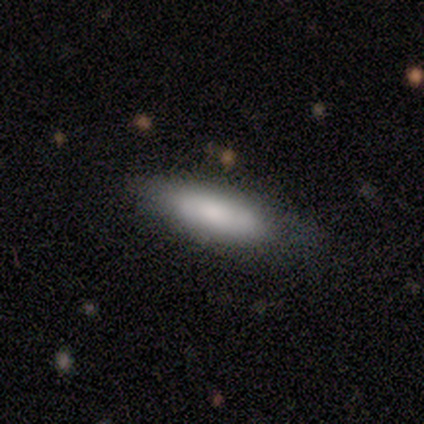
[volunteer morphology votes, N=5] smooth 60%, featured or disk 40%, star or artifact 0%. Down the decision tree: how rounded — cigar-shaped (67%); merging — none (60%).